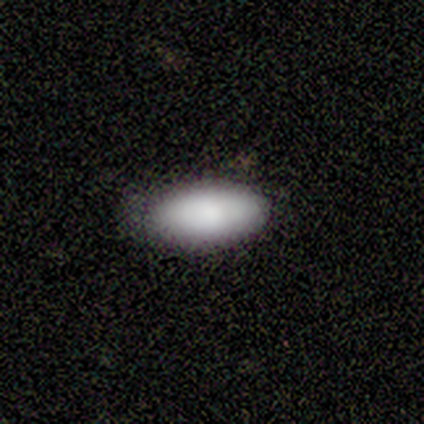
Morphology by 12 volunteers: Smooth or featured? smooth (100%)
How rounded? in between (92%)
Merging? none (75%)